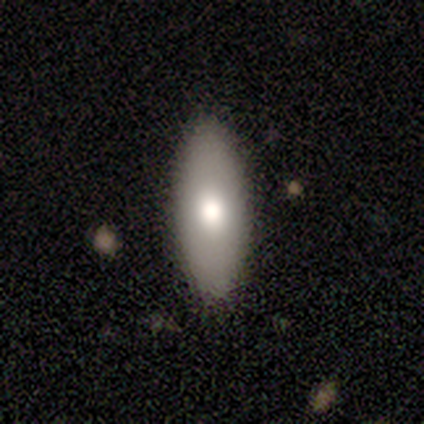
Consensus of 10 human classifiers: Volunteers were most divided on "smooth or featured": smooth: 80%, featured or disk: 10%, star or artifact: 10%. More confident: how rounded — in between (100%); merging — none (89%).